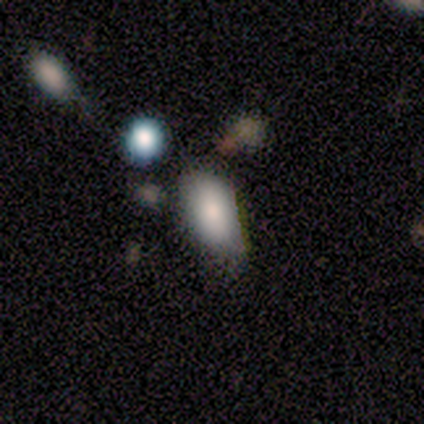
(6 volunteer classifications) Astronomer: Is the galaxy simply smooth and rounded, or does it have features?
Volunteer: smooth — 83%.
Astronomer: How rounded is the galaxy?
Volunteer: in between — 100%.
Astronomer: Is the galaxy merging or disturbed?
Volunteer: none — 50%, tied with minor disturbance at 50%.